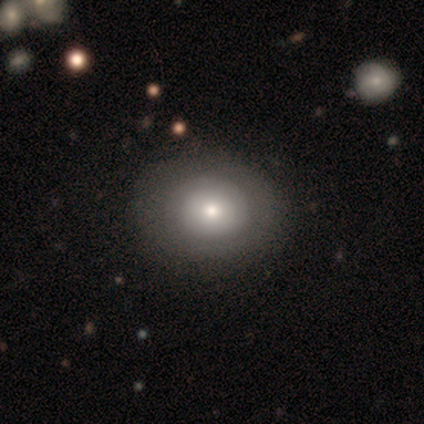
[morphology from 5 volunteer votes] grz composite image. It shows a featured or disk galaxy (60%) with no bar (100%), no spiral arms (67%) and a dominant central bulge (33%, tied with moderate and small). Merging: none (60%).